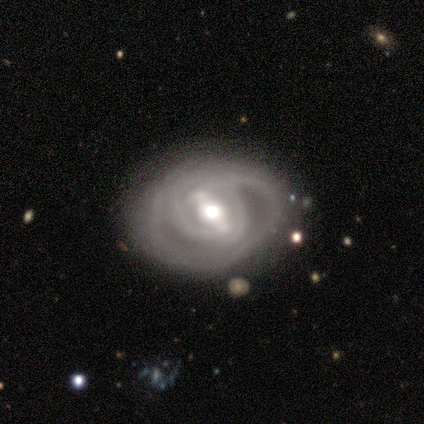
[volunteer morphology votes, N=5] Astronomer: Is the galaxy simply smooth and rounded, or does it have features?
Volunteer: featured or disk — 100%.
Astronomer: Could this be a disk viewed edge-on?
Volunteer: no — 100%.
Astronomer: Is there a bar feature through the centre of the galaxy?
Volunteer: weak — 80%.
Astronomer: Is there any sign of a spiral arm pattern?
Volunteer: yes — 100%.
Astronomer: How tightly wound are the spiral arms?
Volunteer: tight — 80%.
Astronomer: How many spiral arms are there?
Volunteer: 2 — 40% (runner-up: 3, 20%).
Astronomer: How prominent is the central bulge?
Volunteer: moderate — 60%.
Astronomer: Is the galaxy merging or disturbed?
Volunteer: none — 80%.